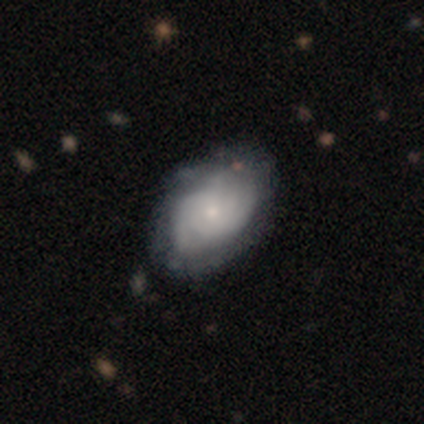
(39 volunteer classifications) Volunteers were most divided on "spiral arm count": can't tell: 40%, 2: 30%, 3: 20%, 4: 10%, 1: 0%, more than 4: 0%. More confident: edge-on disk — no (96%); bar — no (88%); bulge size — small (81%); spiral arms — yes (77%); smooth or featured — featured or disk (69%); spiral winding — tight (65%); merging — none (54%).